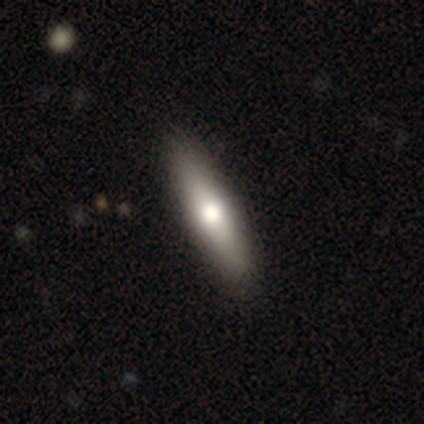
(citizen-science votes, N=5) Smooth or featured?
  - smooth: 80% *
  - featured or disk: 20%
  - star or artifact: 0%
How rounded?
  - cigar-shaped: 100% *
  - round: 0%
  - in between: 0%
Merging?
  - none: 80% *
  - minor disturbance: 20%
  - major disturbance: 0%
  - merger: 0%